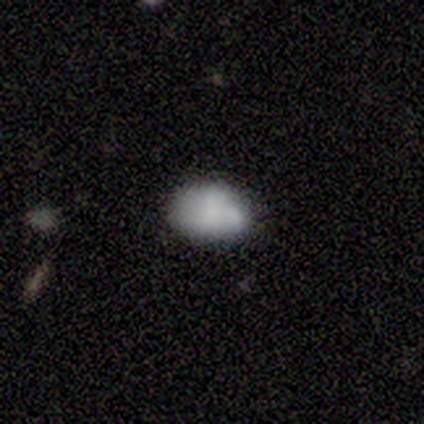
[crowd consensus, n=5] This appears to be a smooth galaxy with no disk features (100%) that is in between round and cigar-shaped (80%). Merging: none (40%, tied with minor disturbance).